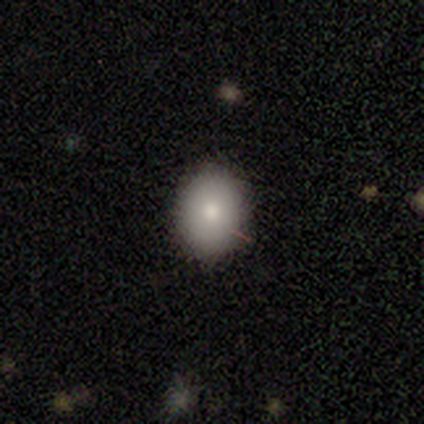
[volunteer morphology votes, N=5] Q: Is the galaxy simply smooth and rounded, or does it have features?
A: smooth — 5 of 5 (100%).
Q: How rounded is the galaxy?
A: in between — 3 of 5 (60%).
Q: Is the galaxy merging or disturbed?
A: none — 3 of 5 (60%).